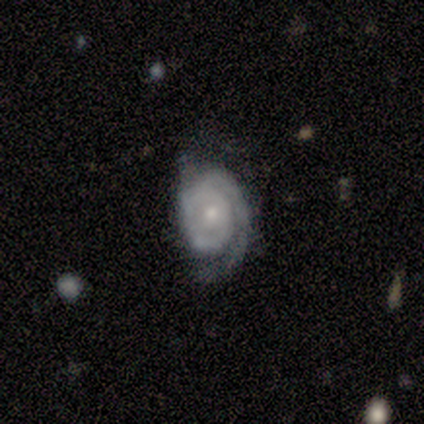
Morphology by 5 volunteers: This appears to be a featured or disk galaxy (80%) with no bar (50%), 1 (75%) tight (75%) spiral arms (100%) and a moderate central bulge (75%). Merging: minor disturbance (60%).